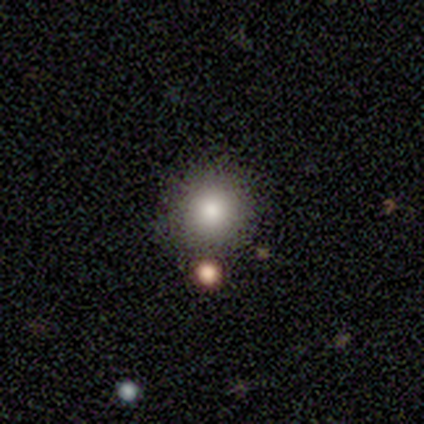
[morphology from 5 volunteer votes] smooth-or-featured: smooth: 100% | featured or disk: 0% | star or artifact: 0%
  how-rounded: round: 100% | in between: 0% | cigar-shaped: 0%
  merging: none: 100% | minor disturbance: 0% | major disturbance: 0% | merger: 0%